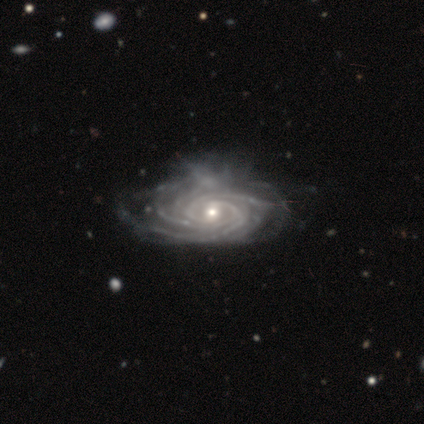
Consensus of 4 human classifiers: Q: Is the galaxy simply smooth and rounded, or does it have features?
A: featured or disk — 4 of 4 (100%).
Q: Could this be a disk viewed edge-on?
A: no — 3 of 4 (75%).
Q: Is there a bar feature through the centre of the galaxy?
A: no — 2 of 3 (67%).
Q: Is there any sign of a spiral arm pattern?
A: yes — 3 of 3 (100%).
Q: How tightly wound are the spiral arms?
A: tight — 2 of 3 (67%).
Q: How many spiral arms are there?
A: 3 — 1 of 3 (33%, tied with 4 and more than 4).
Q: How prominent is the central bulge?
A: small — 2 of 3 (67%).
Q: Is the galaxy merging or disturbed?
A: major disturbance — 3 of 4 (75%).